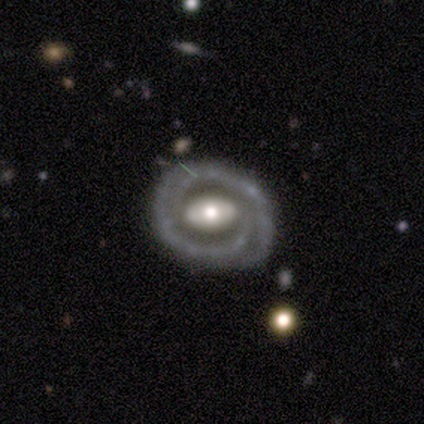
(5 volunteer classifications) smooth-or-featured: featured or disk: 80% | smooth: 20% | star or artifact: 0%
  disk-edge-on: no: 100% | yes: 0%
    bar: weak: 50% | strong: 25% | no: 25%
    has-spiral-arms: yes: 100% | no: 0%
      spiral-winding: tight: 75% | medium: 25% | loose: 0%
      spiral-arm-count: 2: 75% | can't tell: 25% | 1: 0% | 3: 0% | 4: 0% | more than 4: 0%
    bulge-size: moderate: 75% | large: 25% | dominant: 0% | small: 0% | none: 0%
  merging: none: 80% | major disturbance: 20% | minor disturbance: 0% | merger: 0%